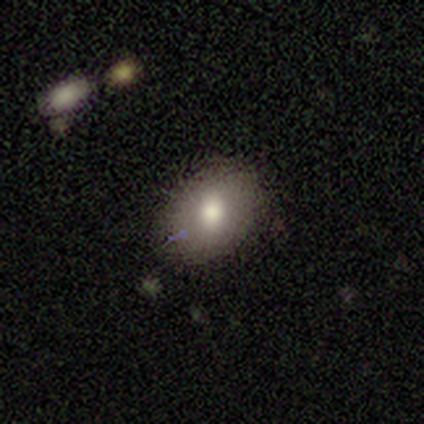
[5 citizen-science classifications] smooth 60%, featured or disk 20%, star or artifact 20%. Down the decision tree: how rounded — in between (100%); merging — none (100%).